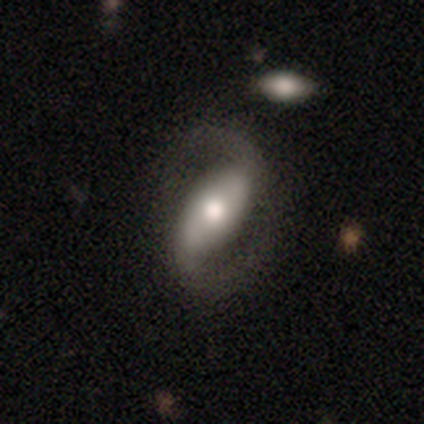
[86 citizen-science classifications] This appears to be a featured or disk galaxy (80%) with a strong bar (62%), 2 (97%) medium (48%) spiral arms (91%) and a moderate central bulge (61%). Merging: none (72%).